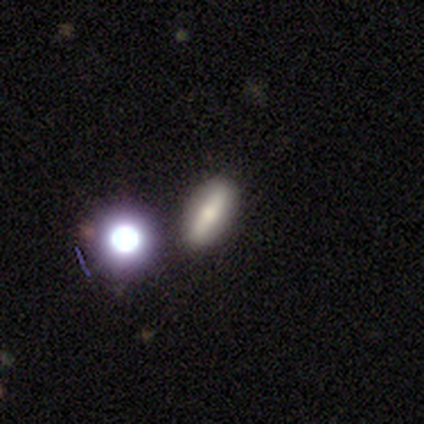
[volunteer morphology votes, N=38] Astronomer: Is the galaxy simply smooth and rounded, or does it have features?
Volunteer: smooth — 47% (runner-up: featured or disk, 45%).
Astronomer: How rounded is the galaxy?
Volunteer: in between — 67%.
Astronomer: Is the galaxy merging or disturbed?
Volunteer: none — 83%.